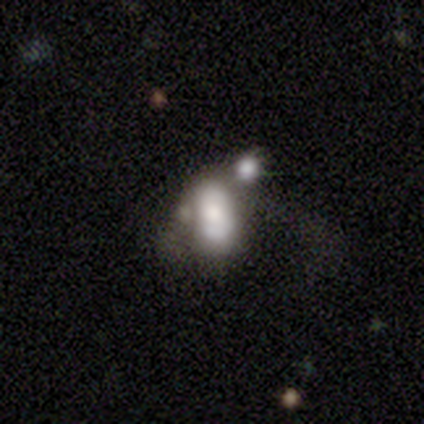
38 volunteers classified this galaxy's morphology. smooth_or_featured: featured or disk (p=0.55) [alt: smooth p=0.37]
disk_edge_on: no (p=1.00)
bar: no (p=0.95) [alt: weak p=0.05]
has_spiral_arms: no (p=0.71) [alt: yes p=0.29]
bulge_size: large (p=0.38) [alt: none p=0.29]
merging: merger (p=0.40) [alt: none p=0.26]